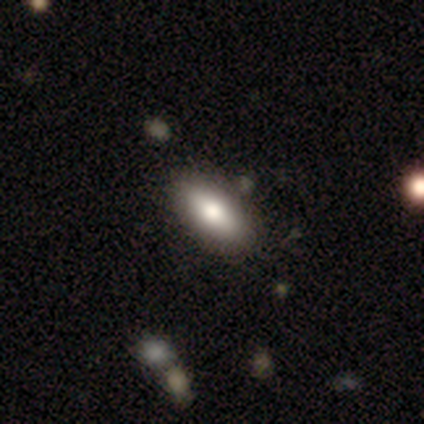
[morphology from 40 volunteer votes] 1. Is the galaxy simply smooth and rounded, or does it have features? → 78% smooth, 18% featured or disk, 5% star or artifact.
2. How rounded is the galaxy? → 90% in between, 6% cigar-shaped, 3% round.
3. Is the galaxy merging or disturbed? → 47% none, 11% merger, 8% minor disturbance, 0% major disturbance.